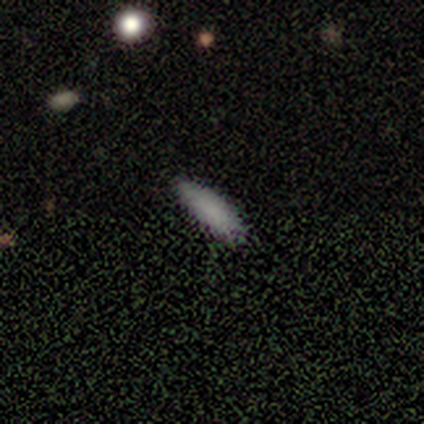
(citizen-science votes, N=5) A smooth galaxy with no disk features (60%) that is in between round and cigar-shaped (100%).

Vote fractions:
- Smooth or featured? smooth: 60% / featured or disk: 20% / star or artifact: 20%
- How rounded? in between: 100% / round: 0% / cigar-shaped: 0%
- Merging? none: 75% / minor disturbance: 25% / major disturbance: 0% / merger: 0%